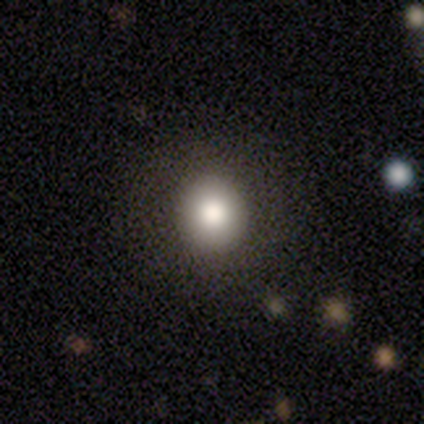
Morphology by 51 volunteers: A smooth galaxy with no disk features (84%) that is round (93%).

Vote fractions:
- Smooth or featured? smooth: 84% / featured or disk: 14% / star or artifact: 2%
- How rounded? round: 93% / in between: 7% / cigar-shaped: 0%
- Merging? none: 88% / minor disturbance: 8% / major disturbance: 4% / merger: 0%